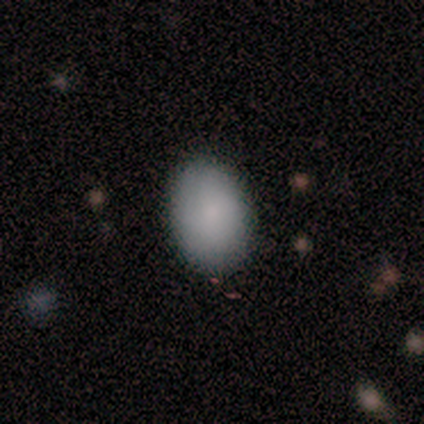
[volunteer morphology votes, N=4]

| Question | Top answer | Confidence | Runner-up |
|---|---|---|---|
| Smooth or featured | smooth | 100% | — |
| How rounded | in between | 75% | round (25%) |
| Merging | none | 100% | — |